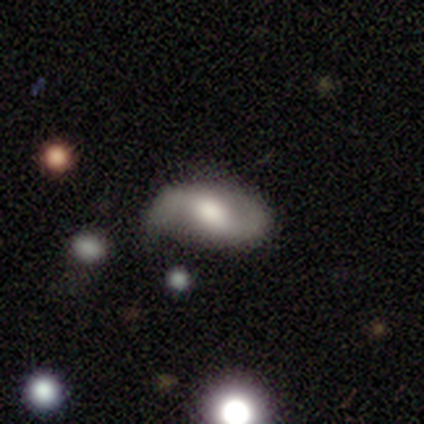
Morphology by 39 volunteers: Smooth or featured: featured or disk — 69% (smooth — 23%)
Edge-on disk: no — 100%
Bar: weak — 52% (no — 26%)
Spiral arms: yes — 89% (no — 11%)
Spiral winding: loose — 67% (medium — 25%)
Spiral arm count: 2 — 92% (1 — 4%)
Bulge size: moderate — 48% (large — 41%)
Merging: none — 56% (minor disturbance — 36%)